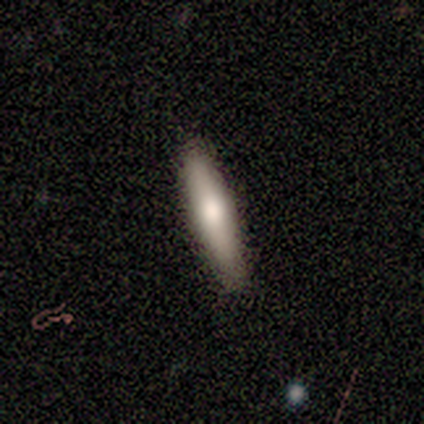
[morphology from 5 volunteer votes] type=smooth (100%); roundness=cigar-shaped (100%); merging=none (60%).